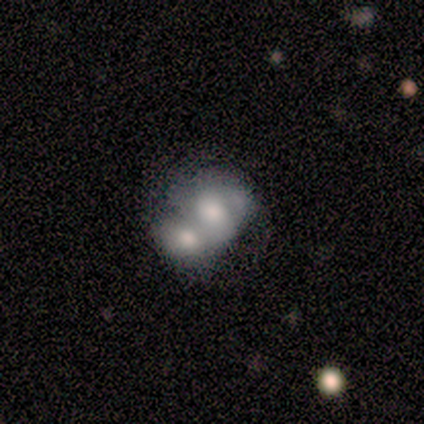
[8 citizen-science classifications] Volunteers were most divided on "smooth or featured": smooth: 75%, featured or disk: 25%, star or artifact: 0%. More confident: merging — merger (88%); how rounded — in between (83%).